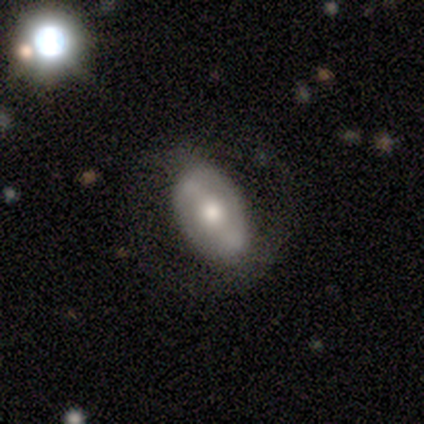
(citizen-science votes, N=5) This is likely a smooth galaxy (60%). How rounded: clearly in between (100%). Merging: likely none (60%).